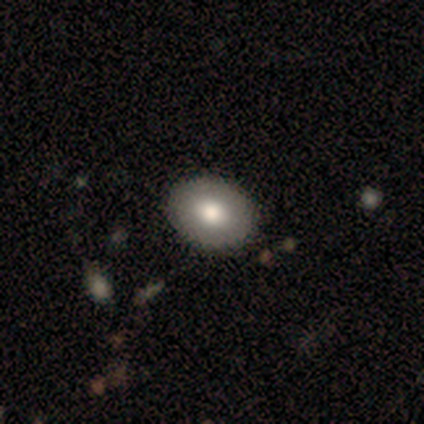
smooth-or-featured: smooth: 84% | featured or disk: 16% | star or artifact: 0%
  how-rounded: in between: 59% | round: 41% | cigar-shaped: 0%
  merging: none: 68% | minor disturbance: 3% | merger: 3% | major disturbance: 0%